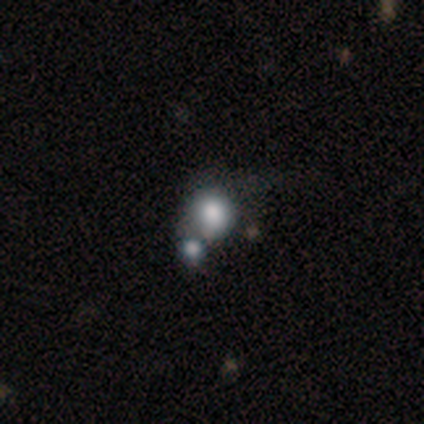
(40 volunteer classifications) This is likely a smooth galaxy (75%). How rounded: clearly round (83%). Merging: marginally merger (33%).